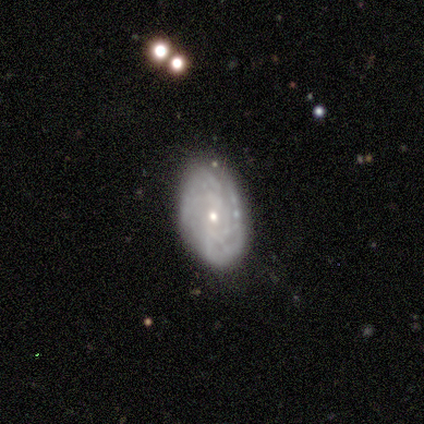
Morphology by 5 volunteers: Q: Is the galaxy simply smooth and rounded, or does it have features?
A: featured or disk — 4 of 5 (80%).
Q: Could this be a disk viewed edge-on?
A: no — 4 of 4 (100%).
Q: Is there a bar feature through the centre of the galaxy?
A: no — 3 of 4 (75%).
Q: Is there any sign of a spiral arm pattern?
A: yes — 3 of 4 (75%).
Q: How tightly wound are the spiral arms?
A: tight — 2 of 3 (67%).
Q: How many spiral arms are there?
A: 1 — 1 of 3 (33%, tied with 4 and can't tell).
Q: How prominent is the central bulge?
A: small — 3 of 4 (75%).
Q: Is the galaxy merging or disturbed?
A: none — 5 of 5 (100%).